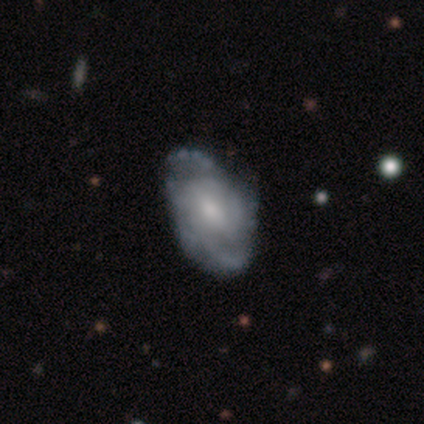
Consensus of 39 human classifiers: This appears to be a featured or disk galaxy (85%) with a weak bar (55%), medium (55%) spiral arms (94%) and a small central bulge (52%). Merging: none (32%).